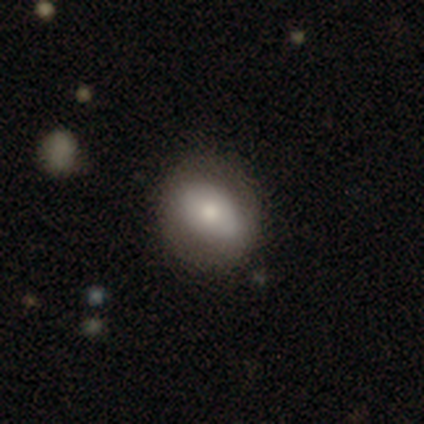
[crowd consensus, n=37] smooth_or_featured: smooth (p=0.57) [alt: featured or disk p=0.35]
how_rounded: round (p=0.52) [alt: in between p=0.48]
merging: none (p=0.71) [alt: minor disturbance p=0.24]